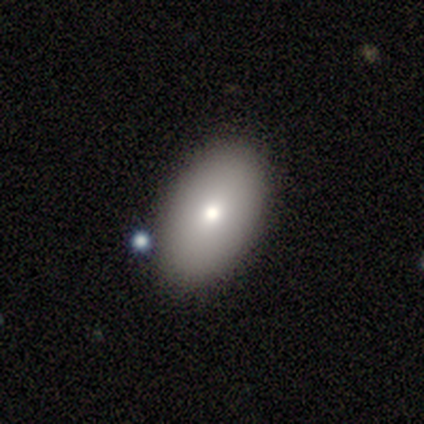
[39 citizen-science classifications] smooth-or-featured: smooth: 82% | featured or disk: 10% | star or artifact: 8%
  how-rounded: in between: 97% | round: 3% | cigar-shaped: 0%
  merging: none: 89% | minor disturbance: 8% | major disturbance: 3% | merger: 0%